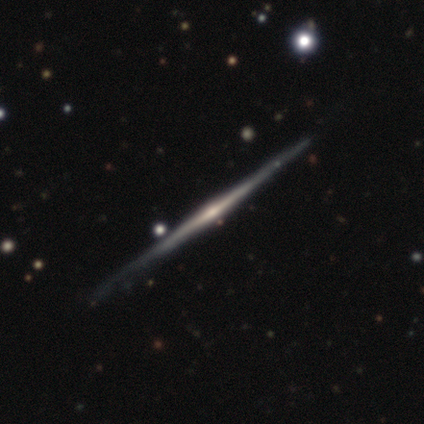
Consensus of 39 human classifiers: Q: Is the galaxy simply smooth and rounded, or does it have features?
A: featured or disk — 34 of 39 (87%).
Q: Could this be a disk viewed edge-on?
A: yes — 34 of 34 (100%).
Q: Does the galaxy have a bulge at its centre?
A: rounded — 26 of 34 (76%).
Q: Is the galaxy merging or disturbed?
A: none — 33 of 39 (85%).